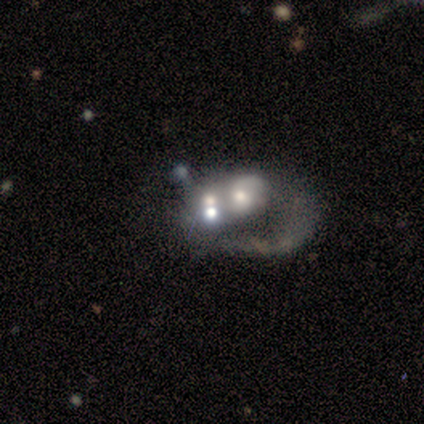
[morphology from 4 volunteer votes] Overall: smooth (50%, tied with featured or disk). How rounded: in between (100%). Merging: major disturbance (75%).